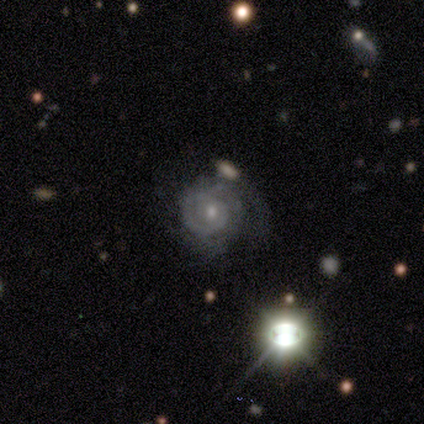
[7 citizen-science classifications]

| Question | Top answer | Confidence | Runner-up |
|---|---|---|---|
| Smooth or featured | featured or disk | 86% | smooth (14%) |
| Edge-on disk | no | 100% | — |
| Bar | no | 67% | strong (17%) |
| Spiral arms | yes | 100% | — |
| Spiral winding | tight | 67% | medium (17%) |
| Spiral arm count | can't tell | 50% | 3 (33%) |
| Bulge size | moderate | 33% | tied: small (33%) |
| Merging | none | 71% | minor disturbance (14%) |